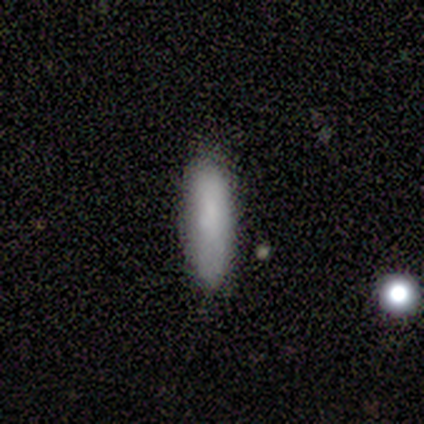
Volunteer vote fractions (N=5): Smooth or featured?
  - smooth: 100% *
  - featured or disk: 0%
  - star or artifact: 0%
How rounded?
  - cigar-shaped: 80% *
  - in between: 20%
  - round: 0%
Merging?
  - none: 80% *
  - minor disturbance: 20%
  - major disturbance: 0%
  - merger: 0%